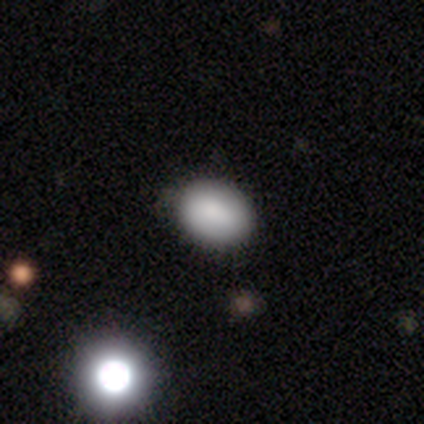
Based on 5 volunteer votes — Smooth or featured: smooth — 100%
How rounded: in between — 100%
Merging: none — 60% (minor disturbance — 40%)